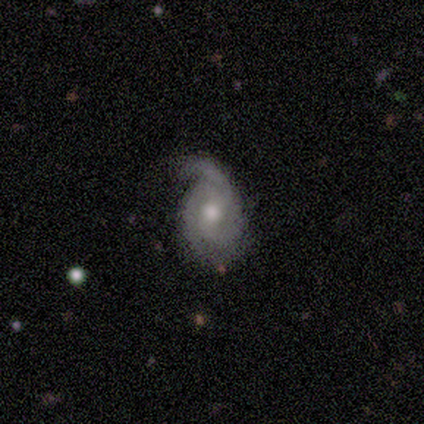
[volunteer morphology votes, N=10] smooth-or-featured: featured or disk: 70% | smooth: 20% | star or artifact: 10%
  disk-edge-on: no: 100% | yes: 0%
    bar: weak: 71% | no: 29% | strong: 0%
    has-spiral-arms: yes: 86% | no: 14%
      spiral-winding: medium: 67% | tight: 17% | loose: 17%
      spiral-arm-count: 2: 83% | 3: 17% | 1: 0% | 4: 0% | more than 4: 0% | can't tell: 0%
    bulge-size: moderate: 86% | large: 14% | dominant: 0% | small: 0% | none: 0%
  merging: none: 44% | minor disturbance: 33% | major disturbance: 22% | merger: 0%